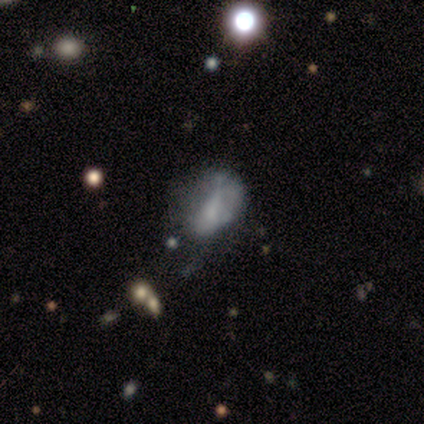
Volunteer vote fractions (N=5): Smooth or featured? 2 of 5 (40%, tied with featured or disk) said smooth. How rounded? 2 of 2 (100%) said in between. Merging? 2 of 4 (50%) said minor disturbance.